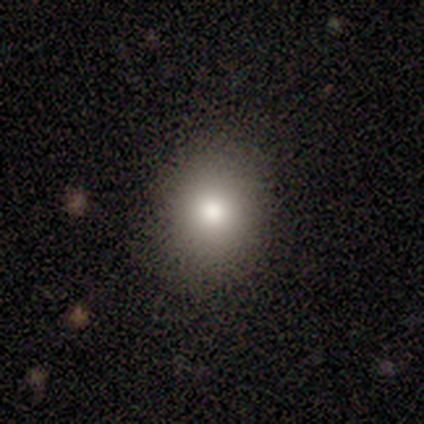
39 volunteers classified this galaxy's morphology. smooth-or-featured: smooth: 64% | star or artifact: 26% | featured or disk: 10%
  how-rounded: round: 72% | in between: 28% | cigar-shaped: 0%
  merging: none: 86% | major disturbance: 7% | minor disturbance: 3% | merger: 3%